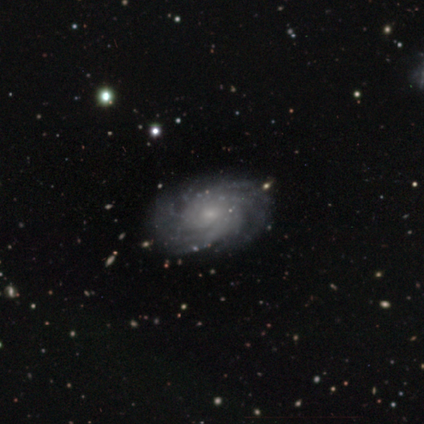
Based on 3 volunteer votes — Q: Smooth or featured?
A: featured or disk (100%)
Q: Edge-on disk?
A: no (100%)
Q: Bar?
A: no (100%)
Q: Spiral arms?
A: yes (100%)
Q: Spiral winding?
A: tight (100%)
Q: Spiral arm count?
A: more than 4 (67%); runner-up: can't tell (33%)
Q: Bulge size?
A: small (67%); runner-up: moderate (33%)
Q: Merging?
A: none (100%)